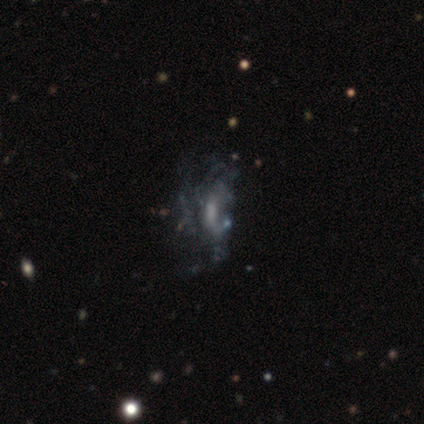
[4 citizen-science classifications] Smooth or featured? 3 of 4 (75%) said featured or disk. Edge-on disk? 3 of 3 (100%) said no. Bar? 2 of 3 (67%) said no. Spiral arms? 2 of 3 (67%) said no. Bulge size? 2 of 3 (67%) said none. Merging? 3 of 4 (75%) said major disturbance.